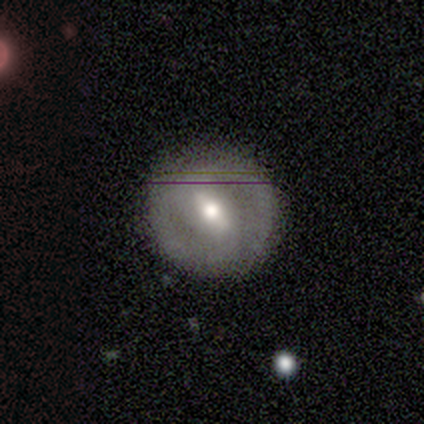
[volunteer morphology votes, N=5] Volunteers were most divided on "spiral arms": yes: 60%, no: 40%. More confident: smooth or featured — featured or disk (100%); edge-on disk — no (100%); spiral arm count — 2 (100%); merging — none (100%); bar — strong (80%); spiral winding — tight (67%); bulge size — moderate (60%).